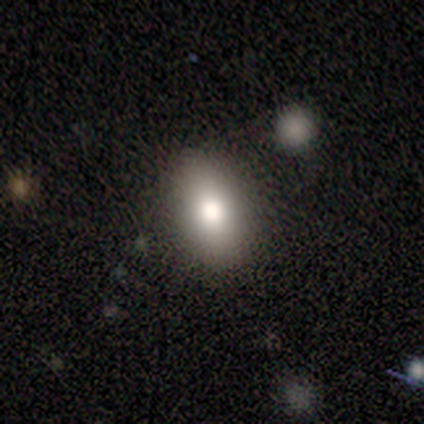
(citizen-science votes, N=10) This is clearly a smooth galaxy (80%). How rounded: clearly in between (100%). Merging: clearly none (80%).